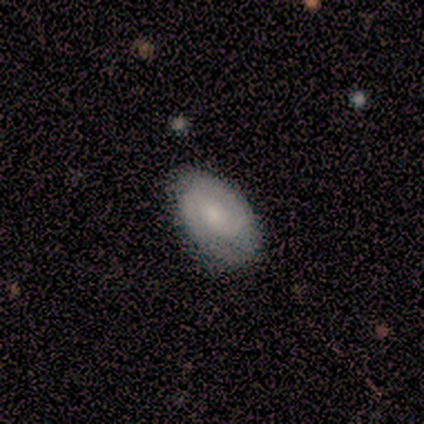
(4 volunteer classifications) Smooth or featured? 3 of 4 (75%) said featured or disk. Edge-on disk? 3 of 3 (100%) said no. Bar? 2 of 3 (67%) said no. Spiral arms? 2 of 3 (67%) said yes. Spiral winding? 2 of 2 (100%) said tight. Spiral arm count? 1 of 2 (50%, tied with 2) said 1. Bulge size? 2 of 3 (67%) said small. Merging? 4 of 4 (100%) said none.